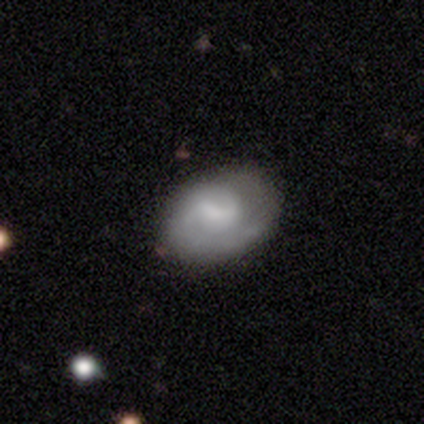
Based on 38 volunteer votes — A featured or disk galaxy (58%) with a weak bar (73%), 2 (63%) tight (79%) spiral arms (86%) and no central bulge (32%). Merging: none (69%).